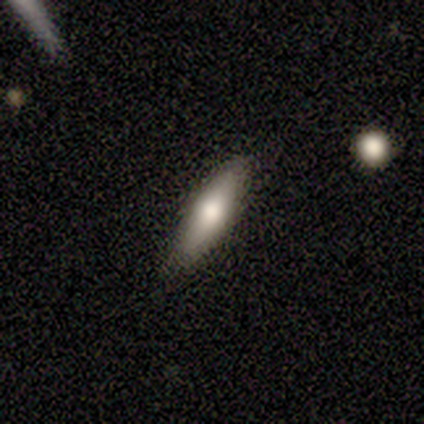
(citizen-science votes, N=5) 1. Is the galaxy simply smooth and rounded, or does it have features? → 60% smooth, 20% featured or disk, 20% star or artifact.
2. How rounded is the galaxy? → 100% cigar-shaped, 0% round, 0% in between.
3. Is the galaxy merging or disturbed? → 75% none, 25% minor disturbance, 0% major disturbance, 0% merger.